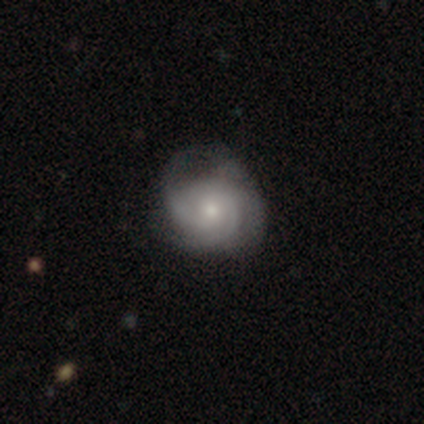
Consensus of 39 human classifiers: Q: Smooth or featured?
A: featured or disk (72%); runner-up: smooth (15%)
Q: Edge-on disk?
A: no (89%); runner-up: yes (11%)
Q: Bar?
A: no (76%); runner-up: weak (20%)
Q: Spiral arms?
A: yes (96%); runner-up: no (4%)
Q: Spiral winding?
A: tight (54%); runner-up: medium (42%)
Q: Spiral arm count?
A: 3 (33%); tied with: can't tell (33%)
Q: Bulge size?
A: small (60%); runner-up: moderate (36%)
Q: Merging?
A: none (47%); runner-up: minor disturbance (44%)